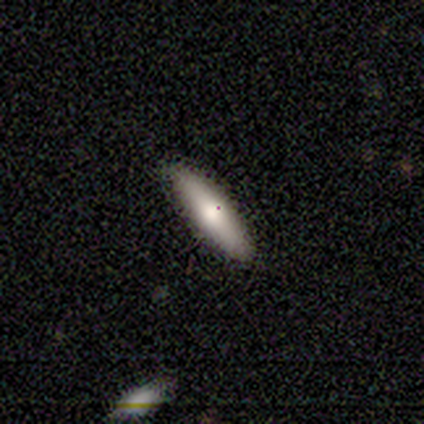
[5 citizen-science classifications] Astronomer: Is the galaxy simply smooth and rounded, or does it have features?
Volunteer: smooth — 80%.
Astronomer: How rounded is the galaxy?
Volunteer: cigar-shaped — 75%.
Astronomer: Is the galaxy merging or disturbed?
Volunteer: none — 100%.